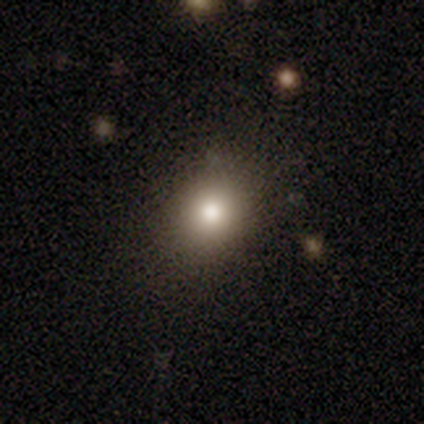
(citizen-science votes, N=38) Morphology: type=smooth (82%); roundness=round (61%); merging=none (88%).